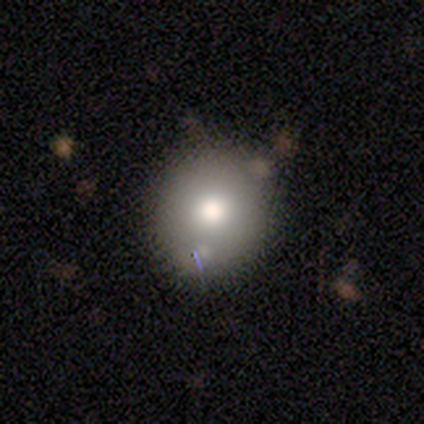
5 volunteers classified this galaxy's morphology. Volunteers were most divided on "merging": none: 50%, minor disturbance: 25%, merger: 25%, major disturbance: 0%. More confident: how rounded — in between (67%); smooth or featured — smooth (60%).